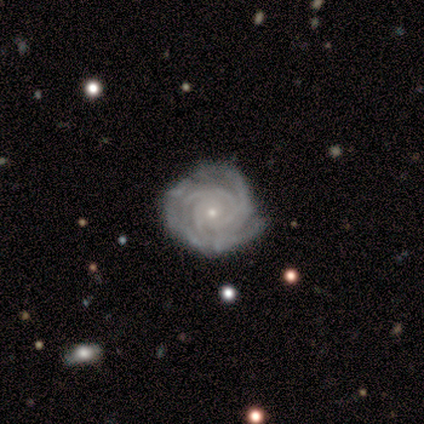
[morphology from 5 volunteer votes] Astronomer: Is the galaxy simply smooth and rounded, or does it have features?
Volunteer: featured or disk — 80%.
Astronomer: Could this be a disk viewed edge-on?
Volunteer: no — 100%.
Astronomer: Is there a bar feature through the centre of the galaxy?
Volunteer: no — 75%.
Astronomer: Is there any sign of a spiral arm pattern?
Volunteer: yes — 100%.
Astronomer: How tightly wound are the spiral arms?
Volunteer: tight — 100%.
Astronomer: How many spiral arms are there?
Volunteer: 3 — 50%.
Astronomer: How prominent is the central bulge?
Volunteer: small — 100%.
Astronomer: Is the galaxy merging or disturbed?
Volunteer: none — 100%.